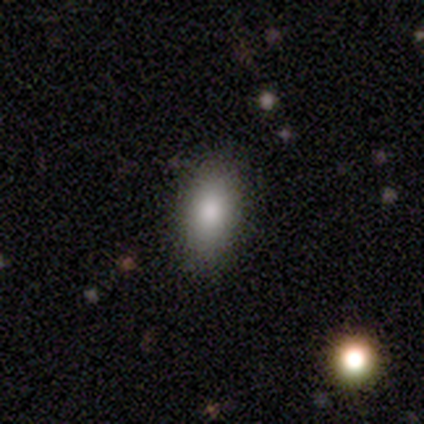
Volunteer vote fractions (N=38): This appears to be a smooth galaxy with no disk features (87%) that is in between round and cigar-shaped (88%). Merging: none (88%).